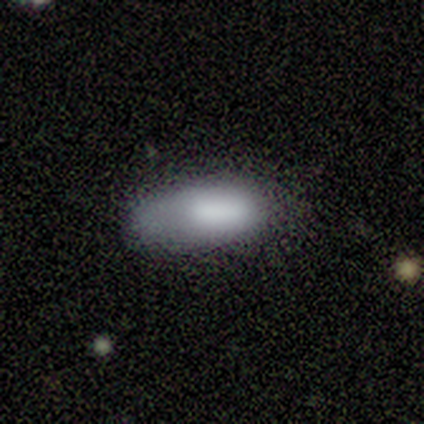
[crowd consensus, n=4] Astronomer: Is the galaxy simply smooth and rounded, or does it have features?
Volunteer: smooth — 75%.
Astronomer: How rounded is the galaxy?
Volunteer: in between — 67%.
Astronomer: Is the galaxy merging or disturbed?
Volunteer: none — 50%, tied with minor disturbance at 50%.